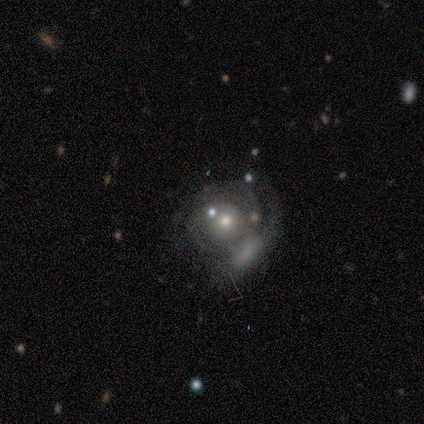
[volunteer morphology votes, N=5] A featured or disk galaxy (100%) with no bar (100%), no spiral arms (80%) and a moderate central bulge (100%). Merging: major disturbance (60%).